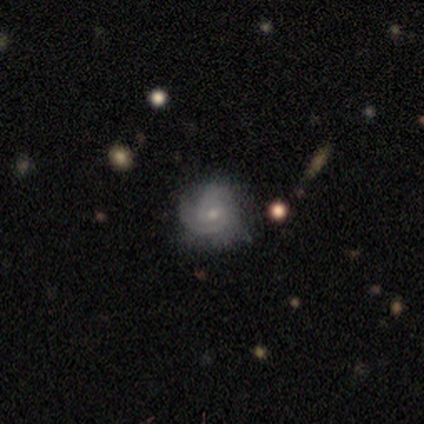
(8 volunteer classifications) smooth_or_featured: featured or disk (p=0.88) [alt: smooth p=0.12]
disk_edge_on: no (p=1.00)
bar: no (p=0.86) [alt: weak p=0.14]
has_spiral_arms: yes (p=1.00)
spiral_winding: tight (p=0.71) [alt: medium p=0.29]
spiral_arm_count: can't tell (p=0.57) [alt: 2 p=0.29]
bulge_size: small (p=0.71) [alt: moderate p=0.29]
merging: none (p=1.00)